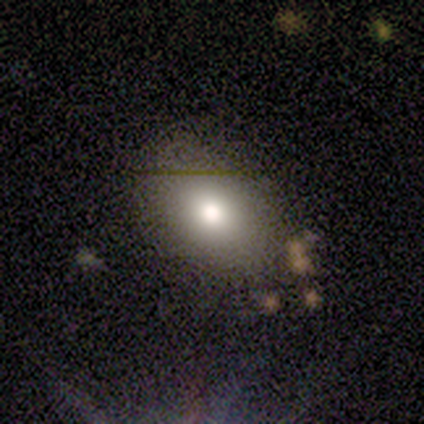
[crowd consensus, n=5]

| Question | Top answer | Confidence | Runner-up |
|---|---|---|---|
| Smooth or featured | smooth | 60% | star or artifact (40%) |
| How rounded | in between | 67% | round (33%) |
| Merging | none | 33% | tied: minor disturbance (33%), major disturbance (33%) |